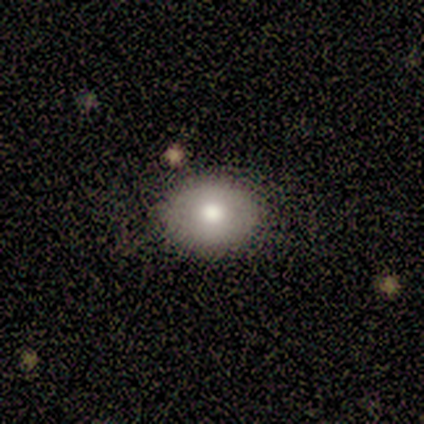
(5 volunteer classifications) A smooth galaxy with no disk features (100%) that is in between round and cigar-shaped (60%). Merging: none (100%).